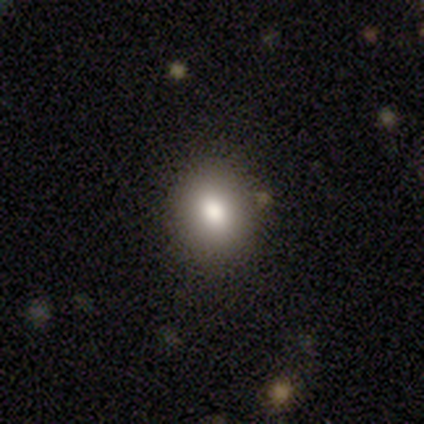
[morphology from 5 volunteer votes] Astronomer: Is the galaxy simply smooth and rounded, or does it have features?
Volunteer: smooth — 60%.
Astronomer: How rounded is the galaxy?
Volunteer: in between — 67%.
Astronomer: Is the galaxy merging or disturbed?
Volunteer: none — 100%.